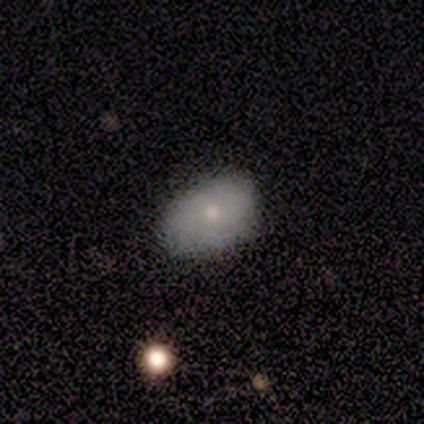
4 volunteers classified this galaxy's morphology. type=smooth (100%); roundness=in between (100%); merging=none (100%).